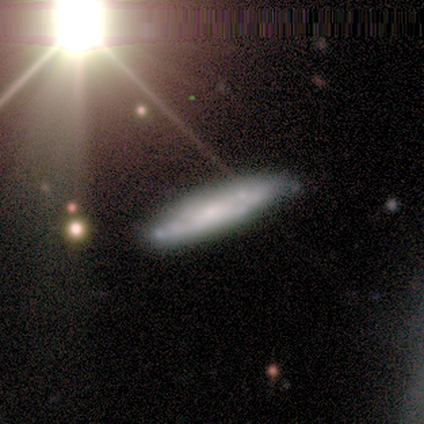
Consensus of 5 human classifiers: Smooth or featured? smooth (80%)
How rounded? cigar-shaped (75%)
Merging? none (80%)